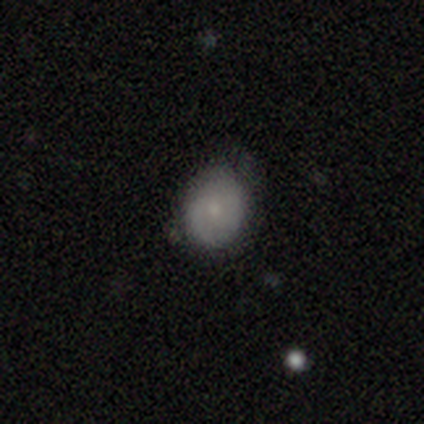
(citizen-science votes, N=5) Smooth or featured?
  - smooth: 80% *
  - featured or disk: 20%
  - star or artifact: 0%
How rounded?
  - in between: 100% *
  - round: 0%
  - cigar-shaped: 0%
Merging?
  - none: 100% *
  - minor disturbance: 0%
  - major disturbance: 0%
  - merger: 0%